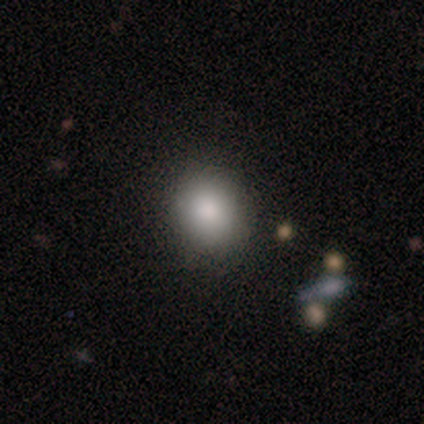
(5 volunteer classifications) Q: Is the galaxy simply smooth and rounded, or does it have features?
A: smooth — 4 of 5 (80%).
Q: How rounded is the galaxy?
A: round — 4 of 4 (100%).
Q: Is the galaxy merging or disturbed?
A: none — 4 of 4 (100%).